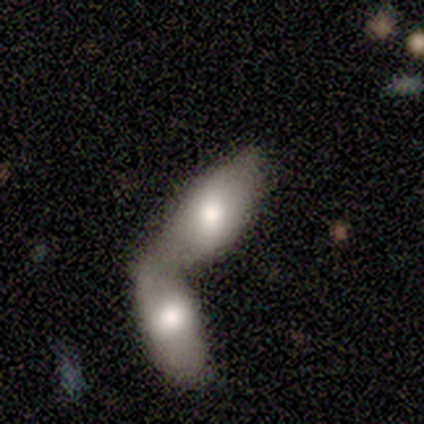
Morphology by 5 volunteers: smooth 80%, featured or disk 20%, star or artifact 0%. Down the decision tree: how rounded — in between (75%); merging — merger (80%).